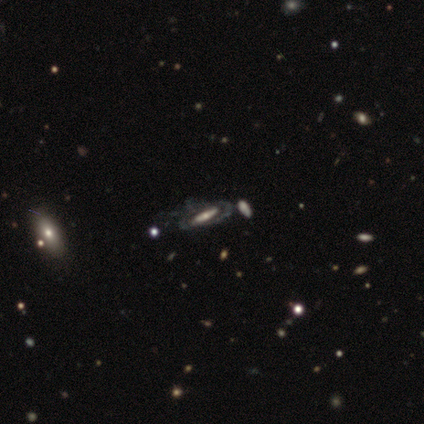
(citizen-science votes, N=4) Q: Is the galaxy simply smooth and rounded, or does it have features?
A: featured or disk — 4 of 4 (100%).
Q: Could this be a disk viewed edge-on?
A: no — 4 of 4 (100%).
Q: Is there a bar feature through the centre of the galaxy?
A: strong — 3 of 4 (75%).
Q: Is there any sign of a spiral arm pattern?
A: yes — 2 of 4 (50%, tied with no).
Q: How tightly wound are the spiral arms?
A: tight — 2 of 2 (100%).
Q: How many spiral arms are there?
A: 2 — 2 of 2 (100%).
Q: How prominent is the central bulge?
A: moderate — 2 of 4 (50%).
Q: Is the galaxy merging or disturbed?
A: none — 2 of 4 (50%).